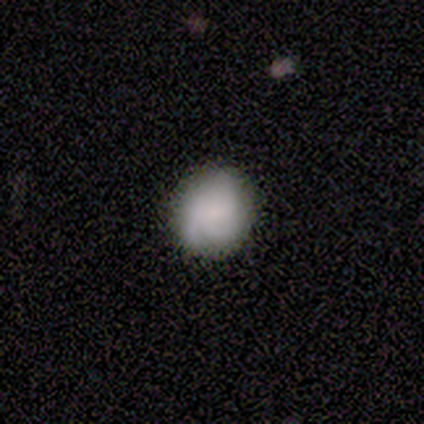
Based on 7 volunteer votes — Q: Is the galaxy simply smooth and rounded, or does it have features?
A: smooth — 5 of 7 (71%).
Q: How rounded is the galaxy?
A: round — 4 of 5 (80%).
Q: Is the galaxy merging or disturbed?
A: none — 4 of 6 (67%).